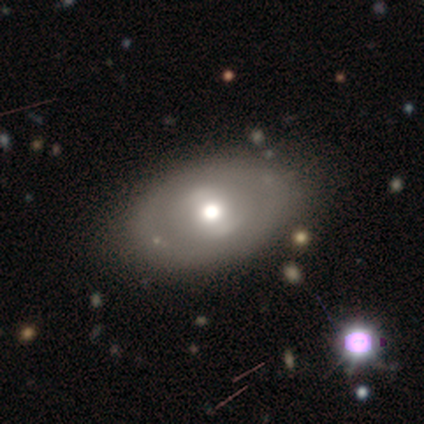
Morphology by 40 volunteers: Smooth or featured? smooth (57%)
How rounded? in between (83%)
Merging? none (85%)